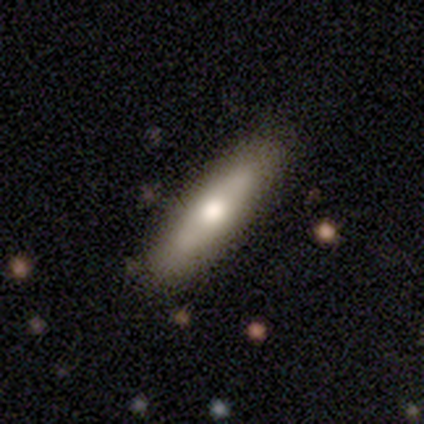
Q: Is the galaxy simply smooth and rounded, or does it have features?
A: smooth — 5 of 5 (100%).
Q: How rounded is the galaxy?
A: cigar-shaped — 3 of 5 (60%).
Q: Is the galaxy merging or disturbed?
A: none — 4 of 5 (80%).